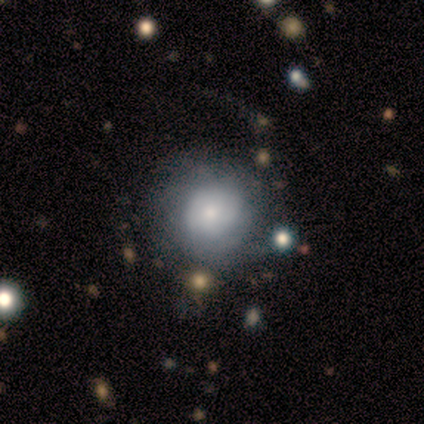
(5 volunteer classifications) Morphology: type=smooth (80%); roundness=round (100%); merging=none (80%).